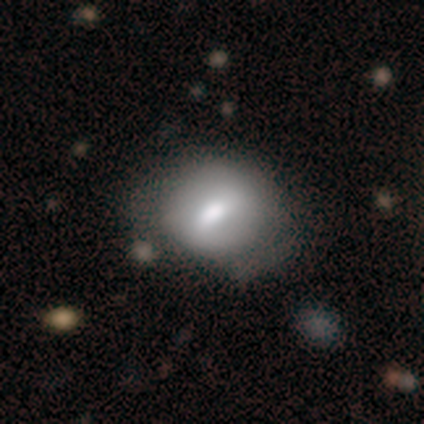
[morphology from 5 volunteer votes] Smooth or featured: smooth — 60% (featured or disk — 40%)
How rounded: in between — 67% (round — 33%)
Merging: minor disturbance — 60% (none — 40%)